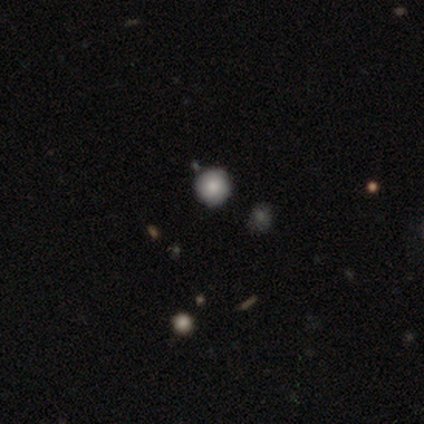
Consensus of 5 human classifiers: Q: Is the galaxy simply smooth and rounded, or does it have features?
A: smooth — 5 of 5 (100%).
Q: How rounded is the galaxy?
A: round — 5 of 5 (100%).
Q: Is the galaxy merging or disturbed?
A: none — 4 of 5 (80%).